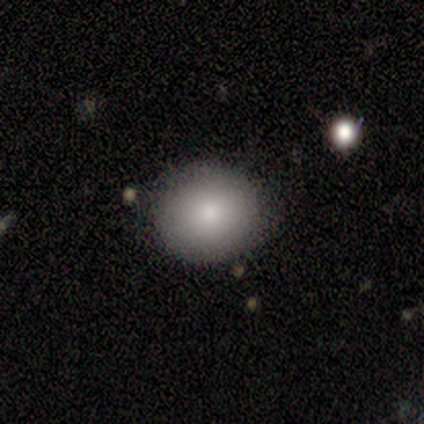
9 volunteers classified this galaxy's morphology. Smooth or featured? smooth (100%)
How rounded? round (78%)
Merging? none (89%)